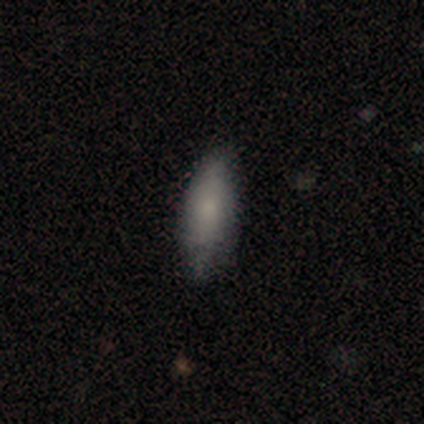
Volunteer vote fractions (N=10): Smooth or featured? smooth (100%)
How rounded? in between (60%)
Merging? none (90%)